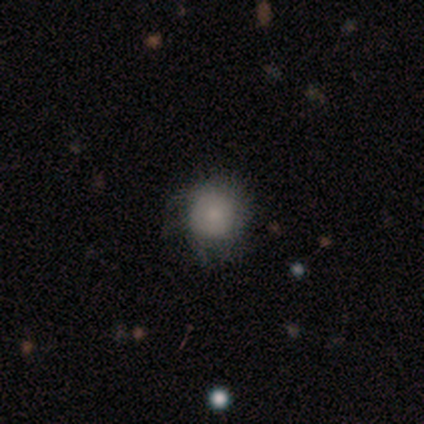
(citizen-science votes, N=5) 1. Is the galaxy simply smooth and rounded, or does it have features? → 60% smooth, 20% featured or disk, 20% star or artifact.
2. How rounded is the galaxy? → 100% round, 0% in between, 0% cigar-shaped.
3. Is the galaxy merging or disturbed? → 100% none, 0% minor disturbance, 0% major disturbance, 0% merger.